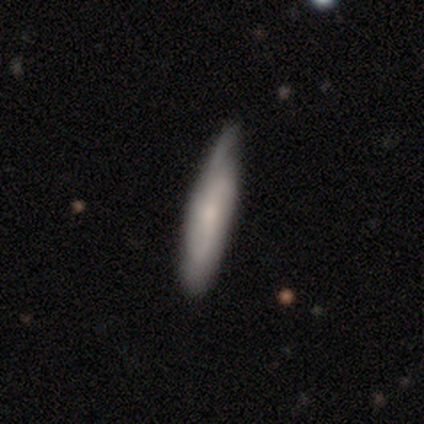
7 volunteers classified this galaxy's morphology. A smooth galaxy with no disk features (43%, tied with featured or disk) that is cigar-shaped (67%).

Vote fractions:
- Smooth or featured? smooth: 43% (tied) / featured or disk: 43% (tied) / star or artifact: 14%
- How rounded? cigar-shaped: 67% / in between: 33% / round: 0%
- Merging? minor disturbance: 83% / none: 17% / major disturbance: 0% / merger: 0%